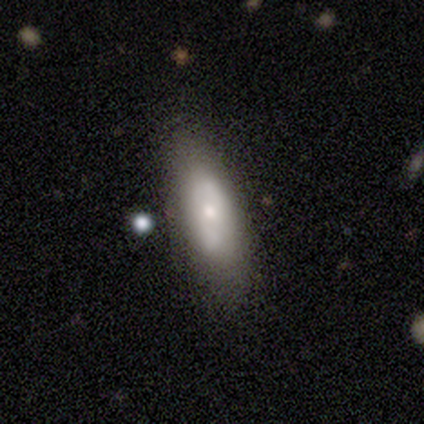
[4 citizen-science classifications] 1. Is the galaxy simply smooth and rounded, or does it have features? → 75% smooth, 25% star or artifact, 0% featured or disk.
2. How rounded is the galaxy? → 67% in between, 33% cigar-shaped, 0% round.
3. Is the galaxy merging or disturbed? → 67% none, 33% minor disturbance, 0% major disturbance, 0% merger.